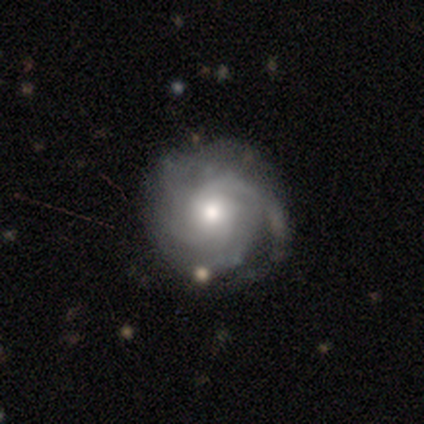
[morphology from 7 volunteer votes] A featured or disk galaxy (100%) with no bar (67%), tight (67%) spiral arms (100%) and a moderate central bulge (100%). Merging: none (57%).